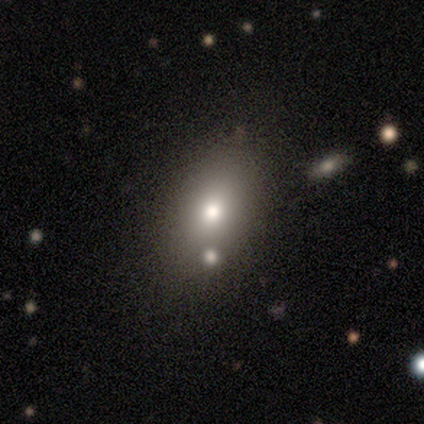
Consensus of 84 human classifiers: smooth_or_featured: smooth (p=0.76) [alt: featured or disk p=0.13]
how_rounded: in between (p=0.77) [alt: round p=0.22]
merging: none (p=0.75) [alt: merger p=0.17]